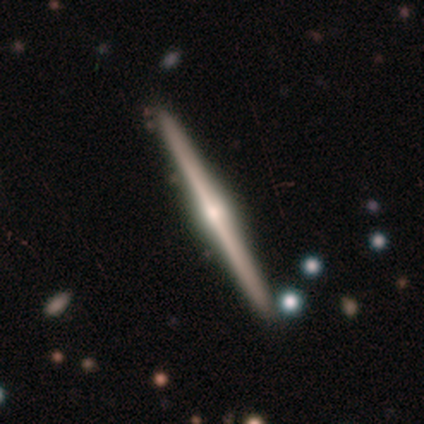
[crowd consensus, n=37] A featured or disk galaxy (81%) viewed edge-on (100%) with a rounded central bulge (97%).

Vote fractions:
- Smooth or featured? featured or disk: 81% / smooth: 19% / star or artifact: 0%
- Edge-on disk? yes: 100% / no: 0%
- Edge-on bulge? rounded: 97% / none: 3% / boxy: 0%
- Merging? none: 92% / minor disturbance: 8% / major disturbance: 0% / merger: 0%